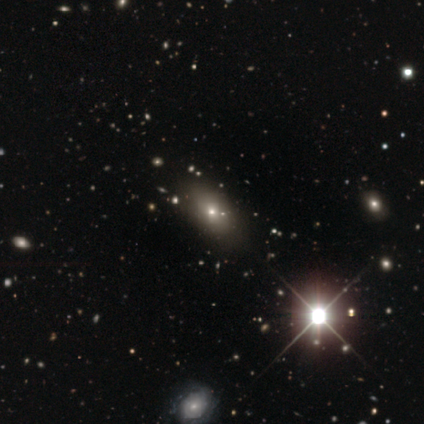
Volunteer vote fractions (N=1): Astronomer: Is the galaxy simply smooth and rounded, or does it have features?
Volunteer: featured or disk — 100%.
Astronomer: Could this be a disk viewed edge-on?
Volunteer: no — 100%.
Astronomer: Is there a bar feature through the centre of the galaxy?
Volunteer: no — 100%.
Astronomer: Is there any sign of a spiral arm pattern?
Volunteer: no — 100%.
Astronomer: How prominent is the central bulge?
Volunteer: small — 100%.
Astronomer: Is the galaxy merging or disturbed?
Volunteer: none — 100%.